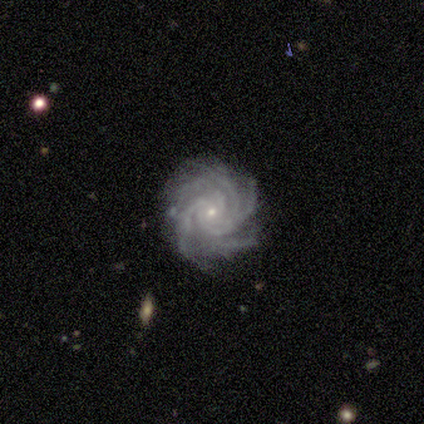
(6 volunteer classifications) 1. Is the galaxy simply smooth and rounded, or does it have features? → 100% featured or disk, 0% smooth, 0% star or artifact.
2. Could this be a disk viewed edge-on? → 83% no, 17% yes.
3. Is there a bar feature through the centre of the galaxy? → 80% no, 20% weak, 0% strong.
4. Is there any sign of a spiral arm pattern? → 100% yes, 0% no.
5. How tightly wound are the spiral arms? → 80% tight, 20% medium, 0% loose.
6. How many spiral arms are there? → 60% 4, 40% more than 4, 0% 1, 0% 2, 0% 3, 0% can't tell.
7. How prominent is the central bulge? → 80% small, 20% moderate, 0% dominant, 0% large, 0% none.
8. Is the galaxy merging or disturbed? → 83% none, 17% merger, 0% minor disturbance, 0% major disturbance.